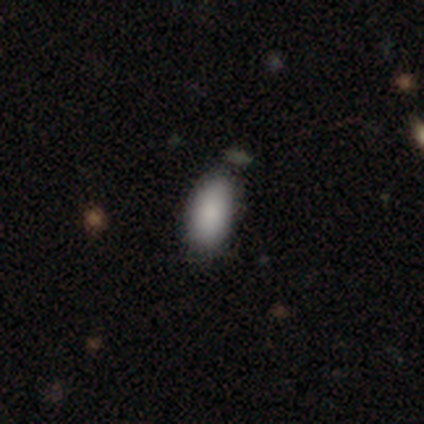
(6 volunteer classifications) Smooth or featured? 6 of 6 (100%) said smooth. How rounded? 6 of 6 (100%) said in between. Merging? 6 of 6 (100%) said none.